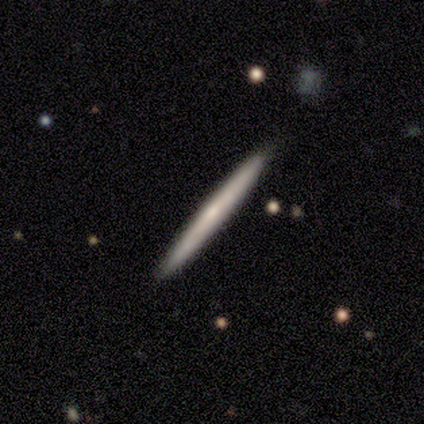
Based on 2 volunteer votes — A smooth galaxy with no disk features (50%, tied with featured or disk) that is cigar-shaped (100%). Merging: none (50%, tied with minor disturbance).